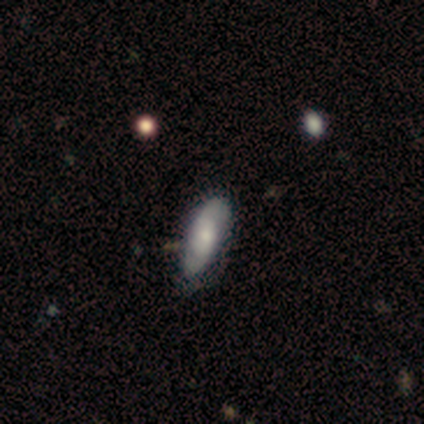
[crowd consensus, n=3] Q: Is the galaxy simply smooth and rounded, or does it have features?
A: featured or disk — 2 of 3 (67%).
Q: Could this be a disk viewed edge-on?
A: no — 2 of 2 (100%).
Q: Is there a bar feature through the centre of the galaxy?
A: weak — 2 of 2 (100%).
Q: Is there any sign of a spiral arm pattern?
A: yes — 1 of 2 (50%, tied with no).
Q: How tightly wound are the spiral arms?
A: medium — 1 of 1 (100%).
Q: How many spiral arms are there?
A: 2 — 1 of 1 (100%).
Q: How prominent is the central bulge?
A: small — 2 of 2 (100%).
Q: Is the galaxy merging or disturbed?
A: minor disturbance — 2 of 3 (67%).